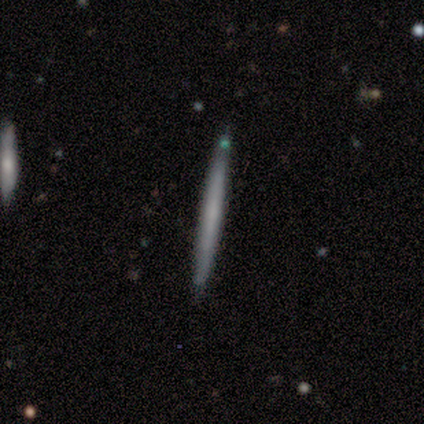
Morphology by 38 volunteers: Q: Smooth or featured?
A: smooth (53%); runner-up: featured or disk (47%)
Q: How rounded?
A: cigar-shaped (90%); runner-up: round (5%)
Q: Merging?
A: none (89%); runner-up: major disturbance (5%)